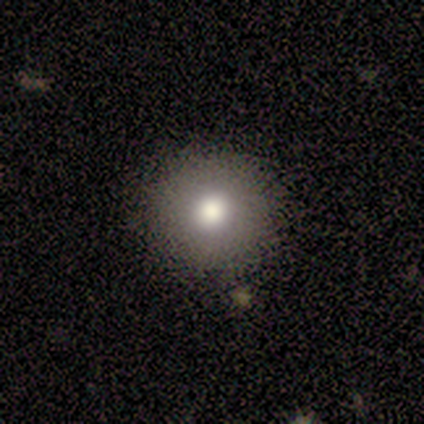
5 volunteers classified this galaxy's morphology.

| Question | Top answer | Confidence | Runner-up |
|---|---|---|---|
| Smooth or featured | smooth | 80% | star or artifact (20%) |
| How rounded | round | 100% | — |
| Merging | none | 50% | minor disturbance (25%) |